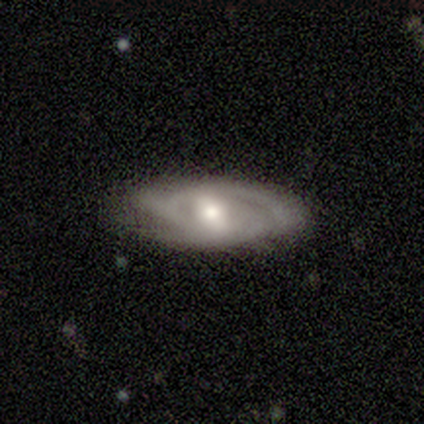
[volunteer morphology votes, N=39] This appears to be a featured or disk galaxy (85%) with a weak bar (48%), 3 (40%) tight (64%) spiral arms (86%) and a moderate central bulge (62%). Merging: none (74%).